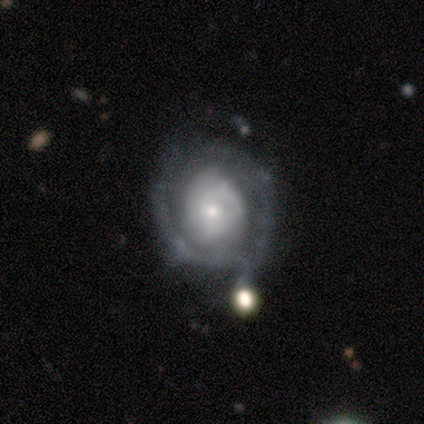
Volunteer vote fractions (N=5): featured or disk 80%, smooth 20%, star or artifact 0%. Down the decision tree: edge-on disk — no (100%); bar — no (100%); spiral arms — yes (75%); spiral arm count — 2 (67%); spiral winding — loose (67%); bulge size — small (75%); merging — none (40%, tied with minor disturbance).